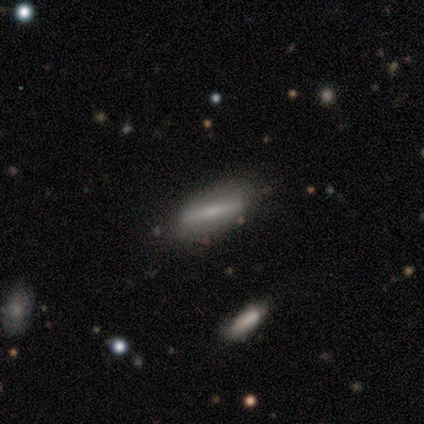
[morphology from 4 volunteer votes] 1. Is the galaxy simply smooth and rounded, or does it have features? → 75% smooth, 25% featured or disk, 0% star or artifact.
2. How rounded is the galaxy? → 100% cigar-shaped, 0% round, 0% in between.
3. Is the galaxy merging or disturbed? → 50% none (tied), 50% minor disturbance (tied), 0% major disturbance, 0% merger.